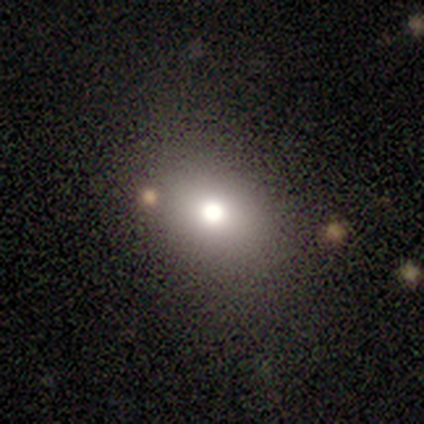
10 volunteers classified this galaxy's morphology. Smooth or featured?
  - smooth: 50% *
  - star or artifact: 30%
  - featured or disk: 20%
How rounded?
  - in between: 80% *
  - round: 20%
  - cigar-shaped: 0%
Merging?
  - none: 100% *
  - minor disturbance: 0%
  - major disturbance: 0%
  - merger: 0%